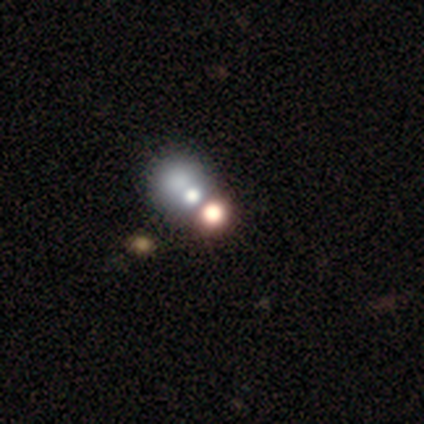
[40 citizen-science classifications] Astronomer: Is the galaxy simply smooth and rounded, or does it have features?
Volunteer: star or artifact — 48% (runner-up: smooth, 38%).